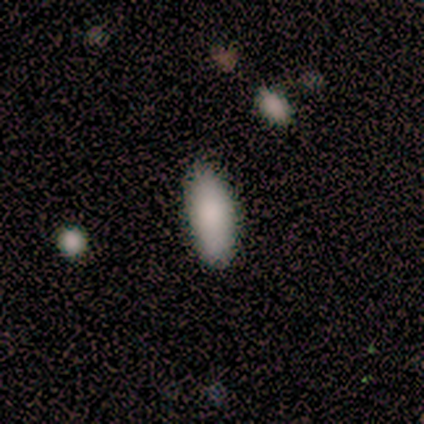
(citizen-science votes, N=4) Volunteers were most divided on "how rounded": in between: 75%, cigar-shaped: 25%, round: 0%. More confident: smooth or featured — smooth (100%); merging — none (100%).